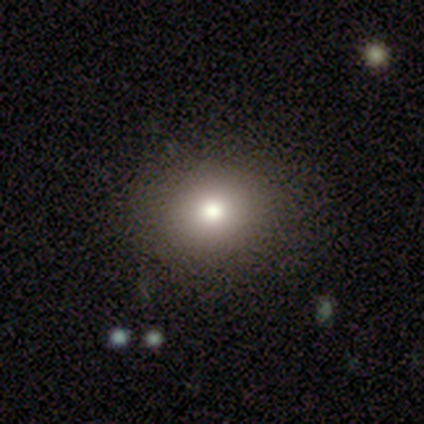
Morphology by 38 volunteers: This is likely a smooth galaxy (79%). How rounded: likely round (73%). Merging: likely none (61%).